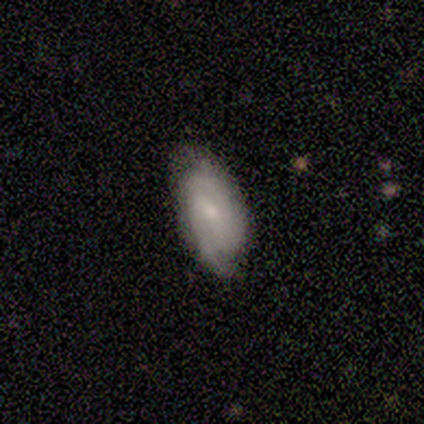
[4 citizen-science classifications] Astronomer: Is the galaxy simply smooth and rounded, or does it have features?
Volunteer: featured or disk — 75%.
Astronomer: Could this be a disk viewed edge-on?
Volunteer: no — 100%.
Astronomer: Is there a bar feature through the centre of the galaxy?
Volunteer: no — 67%.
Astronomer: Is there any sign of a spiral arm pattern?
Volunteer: yes — 100%.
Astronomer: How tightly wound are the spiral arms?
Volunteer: medium — 67%.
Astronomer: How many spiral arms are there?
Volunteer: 3 — 67%.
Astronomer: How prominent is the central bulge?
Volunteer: small — 100%.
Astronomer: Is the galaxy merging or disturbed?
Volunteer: none — 100%.